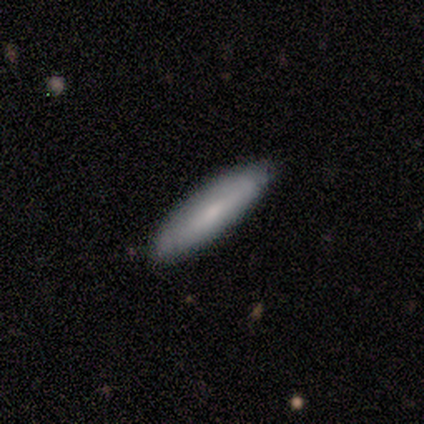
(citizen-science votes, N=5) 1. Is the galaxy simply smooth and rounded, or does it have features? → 100% smooth, 0% featured or disk, 0% star or artifact.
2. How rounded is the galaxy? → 80% cigar-shaped, 20% in between, 0% round.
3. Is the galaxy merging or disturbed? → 100% none, 0% minor disturbance, 0% major disturbance, 0% merger.